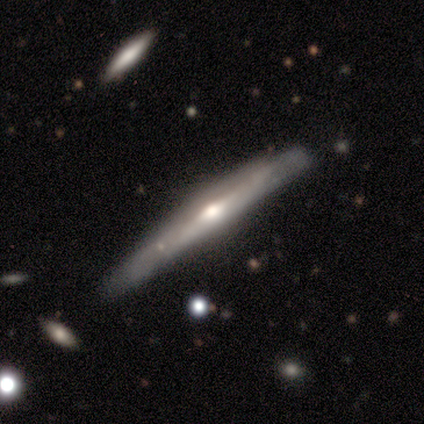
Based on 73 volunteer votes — A featured or disk galaxy (84%) viewed edge-on (93%) with a rounded central bulge (88%). Merging: none (42%).